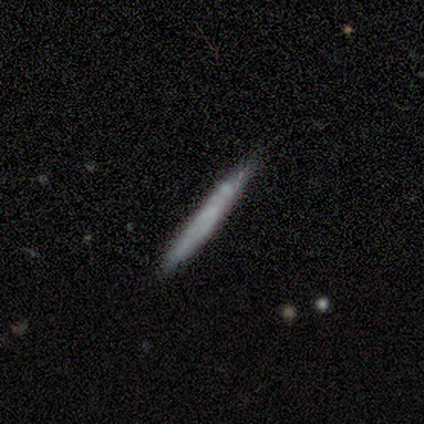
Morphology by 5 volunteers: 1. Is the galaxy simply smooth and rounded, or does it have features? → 80% smooth, 20% featured or disk, 0% star or artifact.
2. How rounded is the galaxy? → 100% cigar-shaped, 0% round, 0% in between.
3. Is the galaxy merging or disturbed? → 60% minor disturbance, 40% none, 0% major disturbance, 0% merger.